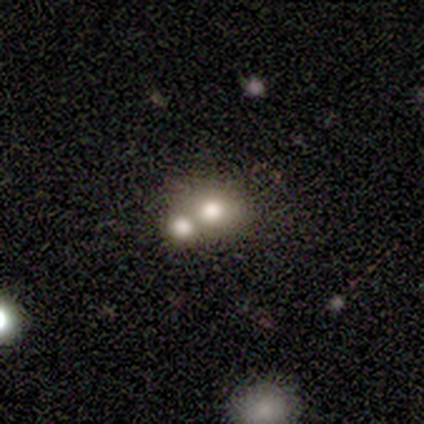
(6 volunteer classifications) smooth 83%, featured or disk 17%, star or artifact 0%. Down the decision tree: how rounded — in between (60%); merging — merger (83%).